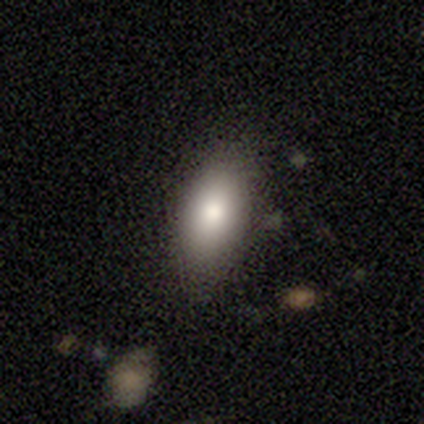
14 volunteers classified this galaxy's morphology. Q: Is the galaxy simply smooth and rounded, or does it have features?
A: smooth — 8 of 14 (57%).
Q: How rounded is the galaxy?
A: in between — 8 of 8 (100%).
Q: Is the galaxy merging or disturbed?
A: none — 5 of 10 (50%, tied with minor disturbance).